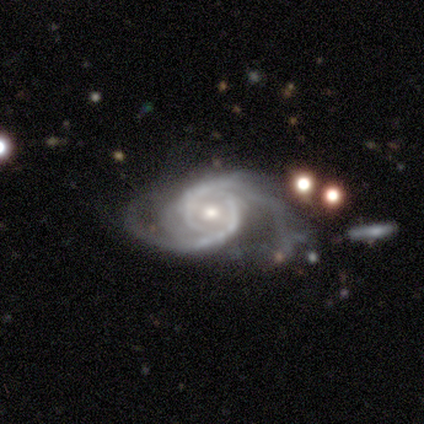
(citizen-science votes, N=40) featured or disk 92%, smooth 5%, star or artifact 2%. Down the decision tree: edge-on disk — no (97%); bar — no (58%); spiral arms — yes (100%); spiral arm count — 2 (78%); spiral winding — tight (42%); bulge size — moderate (72%); merging — major disturbance (46%).